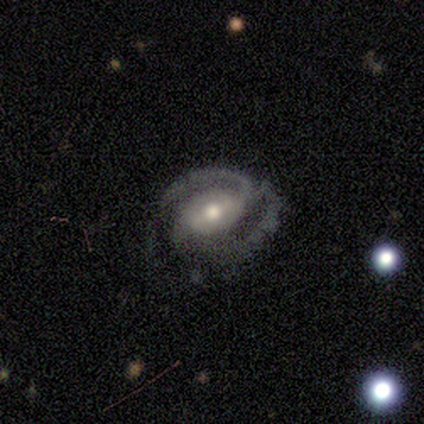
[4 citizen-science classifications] featured or disk 100%, smooth 0%, star or artifact 0%. Down the decision tree: edge-on disk — no (100%); bar — weak (50%); spiral arms — yes (75%); spiral arm count — 2 (67%); spiral winding — tight (33%, tied with medium and loose); bulge size — moderate (100%); merging — none (75%).